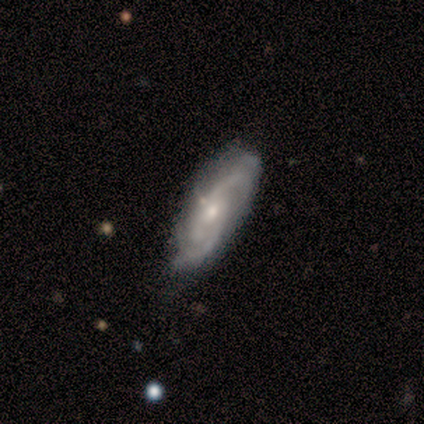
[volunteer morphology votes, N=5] Smooth or featured: featured or disk — 80% (smooth — 20%)
Edge-on disk: no — 100%
Bar: weak — 75% (no — 25%)
Spiral arms: yes — 100%
Spiral winding: tight — 75% (medium — 25%)
Spiral arm count: 3 — 50% (tied with can't tell — 50%)
Bulge size: moderate — 50% (tied with small — 50%)
Merging: none — 100%